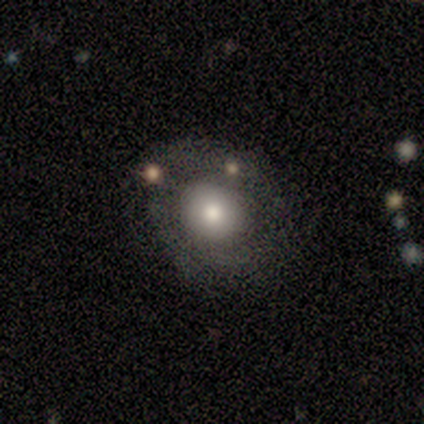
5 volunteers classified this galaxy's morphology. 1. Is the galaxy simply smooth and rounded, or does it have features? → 80% featured or disk, 20% smooth, 0% star or artifact.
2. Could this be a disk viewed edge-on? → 100% no, 0% yes.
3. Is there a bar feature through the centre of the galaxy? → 100% no, 0% strong, 0% weak.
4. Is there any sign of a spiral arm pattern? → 100% no, 0% yes.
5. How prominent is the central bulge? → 50% moderate, 25% large, 25% small, 0% dominant, 0% none.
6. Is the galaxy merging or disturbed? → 80% none, 20% major disturbance, 0% minor disturbance, 0% merger.